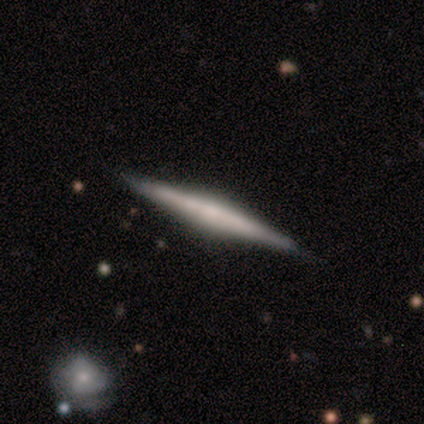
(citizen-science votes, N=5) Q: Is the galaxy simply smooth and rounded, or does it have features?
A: smooth — 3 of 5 (60%).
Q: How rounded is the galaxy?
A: cigar-shaped — 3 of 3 (100%).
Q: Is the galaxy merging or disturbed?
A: none — 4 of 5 (80%).